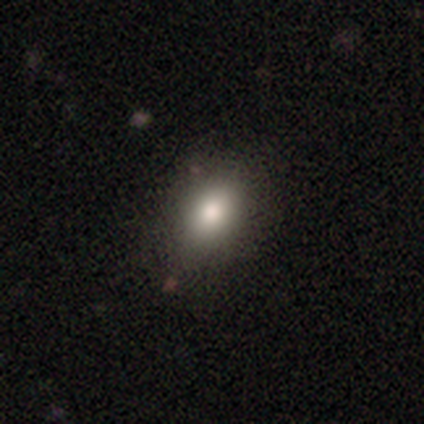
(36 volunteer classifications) Smooth or featured? 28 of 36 (78%) said smooth. How rounded? 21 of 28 (75%) said in between. Merging? 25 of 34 (74%) said none.